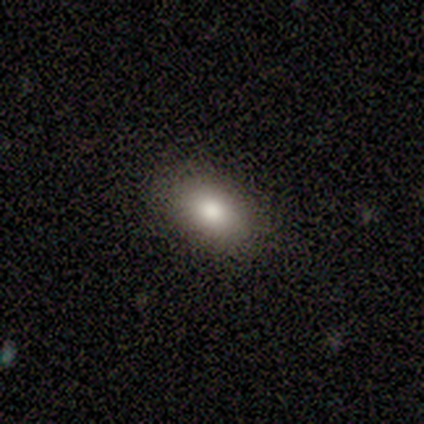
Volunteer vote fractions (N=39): Smooth or featured? smooth (77%)
How rounded? in between (90%)
Merging? none (91%)